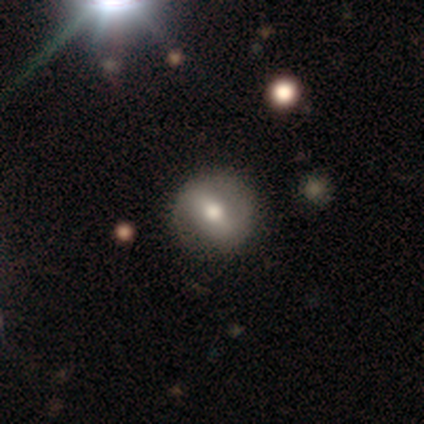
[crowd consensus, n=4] smooth_or_featured: smooth (p=0.75) [alt: featured or disk p=0.25]
how_rounded: round (p=1.00)
merging: none (p=0.75) [alt: minor disturbance p=0.25]